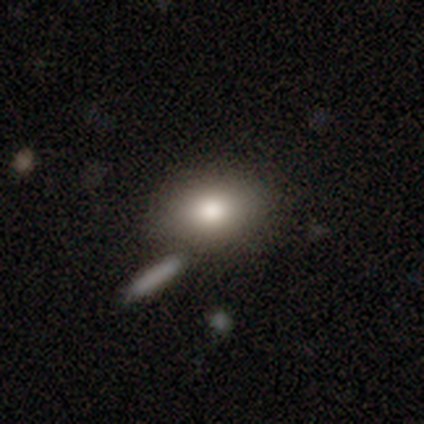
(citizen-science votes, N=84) Overall: smooth (75%). How rounded: in between (75%). Merging: none (65%).